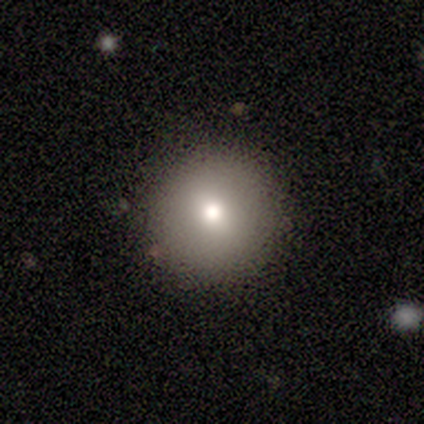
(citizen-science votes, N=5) Smooth or featured? 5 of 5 (100%) said smooth. How rounded? 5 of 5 (100%) said round. Merging? 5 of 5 (100%) said none.